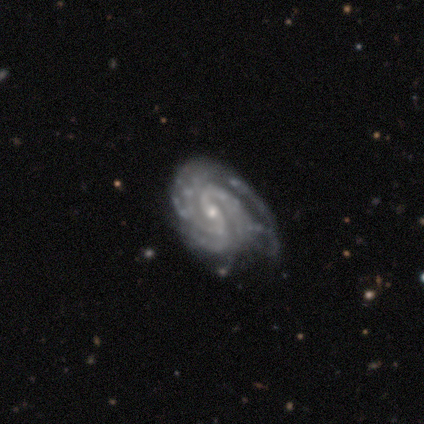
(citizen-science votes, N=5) Overall: featured or disk (100%). Edge-on disk: no (100%). Bar: weak (60%; strong 40%). Spiral arms: yes (100%). Spiral arm count: 3 (40%, tied with can't tell). Spiral winding: tight (60%; medium 40%). Bulge size: moderate (60%; small 40%). Merging: none (40%, tied with minor disturbance).